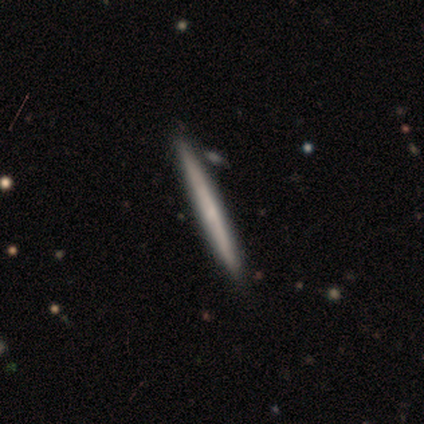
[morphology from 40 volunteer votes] Volunteers were most divided on "smooth or featured": featured or disk: 52%, smooth: 48%, star or artifact: 0%. More confident: edge-on disk — yes (100%); edge-on bulge — none (90%); merging — none (57%).